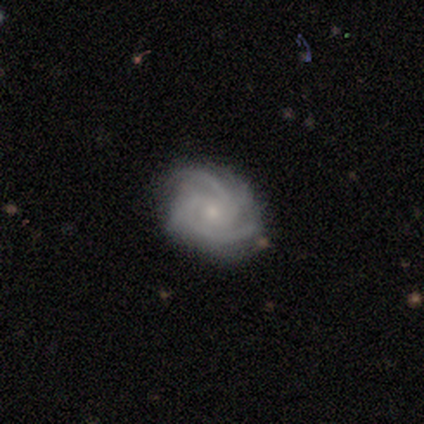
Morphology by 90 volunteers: Q: Smooth or featured?
A: featured or disk (86%); runner-up: smooth (9%)
Q: Edge-on disk?
A: no (96%); runner-up: yes (4%)
Q: Bar?
A: no (77%); runner-up: weak (23%)
Q: Spiral arms?
A: yes (99%); runner-up: no (1%)
Q: Spiral winding?
A: tight (70%); runner-up: medium (26%)
Q: Spiral arm count?
A: 3 (40%); runner-up: 2 (36%)
Q: Bulge size?
A: small (69%); runner-up: moderate (26%)
Q: Merging?
A: none (74%); runner-up: minor disturbance (19%)